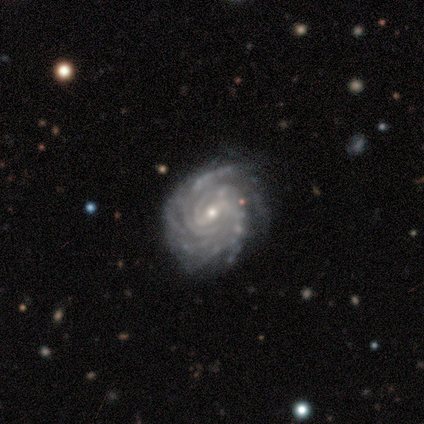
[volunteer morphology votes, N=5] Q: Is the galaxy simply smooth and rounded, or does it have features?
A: featured or disk — 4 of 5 (80%).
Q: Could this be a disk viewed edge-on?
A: no — 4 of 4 (100%).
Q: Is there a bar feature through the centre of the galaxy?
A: weak — 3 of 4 (75%).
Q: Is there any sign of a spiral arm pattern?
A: yes — 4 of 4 (100%).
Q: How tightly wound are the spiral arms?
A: tight — 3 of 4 (75%).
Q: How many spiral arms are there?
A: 3 — 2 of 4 (50%, tied with can't tell).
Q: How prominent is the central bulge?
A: small — 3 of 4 (75%).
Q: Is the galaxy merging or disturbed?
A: none — 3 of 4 (75%).